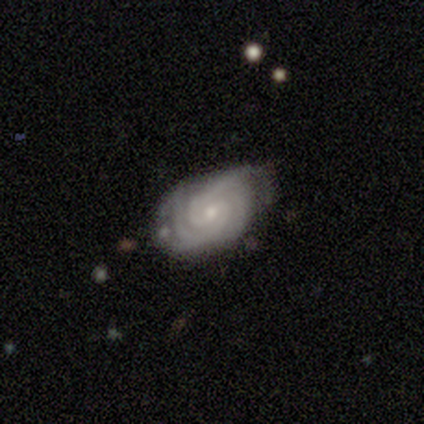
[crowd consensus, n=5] A featured or disk galaxy (80%) with no bar (50%), 2 (50%) tight (100%) spiral arms (100%) and a moderate central bulge (75%).

Vote fractions:
- Smooth or featured? featured or disk: 80% / star or artifact: 20% / smooth: 0%
- Edge-on disk? no: 100% / yes: 0%
- Bar? no: 50% / strong: 25% / weak: 25%
- Spiral arms? yes: 100% / no: 0%
- Spiral winding? tight: 100% / medium: 0% / loose: 0%
- Spiral arm count? 2: 50% / 3: 25% / 4: 25% / 1: 0% / more than 4: 0% / can't tell: 0%
- Bulge size? moderate: 75% / small: 25% / dominant: 0% / large: 0% / none: 0%
- Merging? none: 75% / minor disturbance: 25% / major disturbance: 0% / merger: 0%